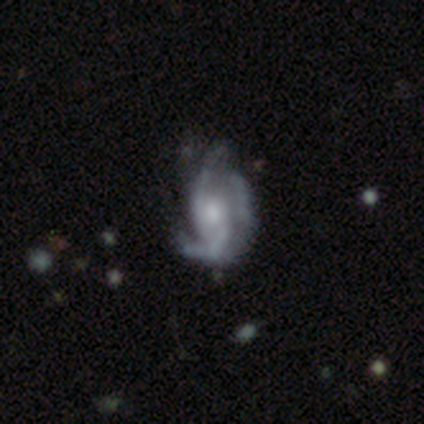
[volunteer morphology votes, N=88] This is clearly a featured or disk galaxy (85%). It is clearly not viewed edge-on (99%). Bar: likely no (68%). Spiral arm pattern: clearly yes (93%). Spiral arm count: possibly 3 (57%). Spiral winding: marginally medium (43%). Central bulge: possibly moderate (55%). Merging: likely none (63%).